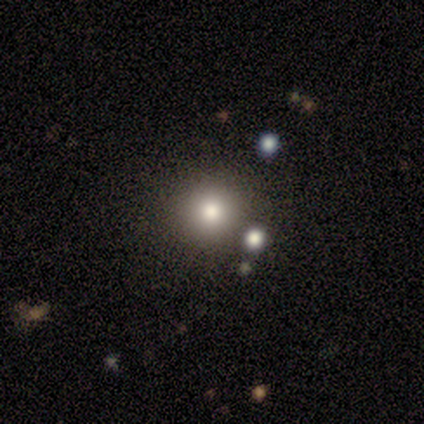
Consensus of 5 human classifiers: Smooth or featured: smooth — 80% (star or artifact — 20%)
How rounded: round — 100%
Merging: none — 100%